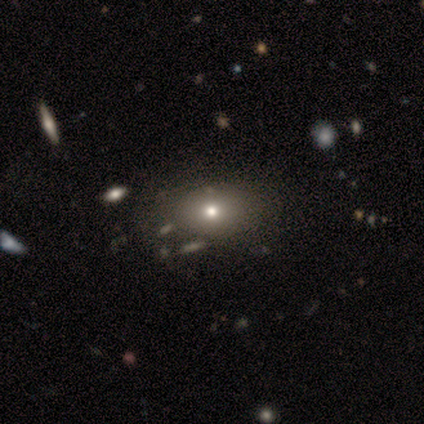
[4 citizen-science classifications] This is likely a smooth galaxy (75%). How rounded: clearly in between (100%). Merging: likely none (75%).